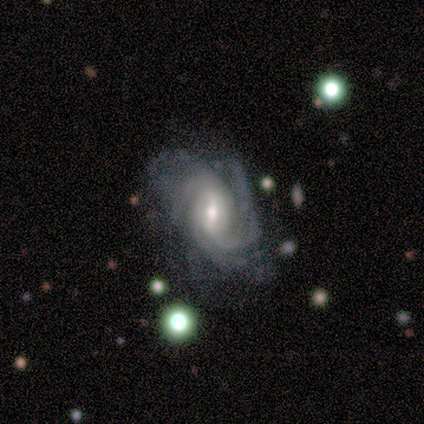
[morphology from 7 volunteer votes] smooth_or_featured: featured or disk (p=1.00)
disk_edge_on: no (p=1.00)
bar: weak (p=0.71) [alt: strong p=0.29]
has_spiral_arms: yes (p=1.00)
spiral_winding: tight (p=0.57) [alt: medium p=0.43]
spiral_arm_count: 3 (p=0.57) [alt: 2 p=0.29]
bulge_size: small (p=0.57) [alt: moderate p=0.43]
merging: none (p=0.43) [alt: minor disturbance p=0.29]